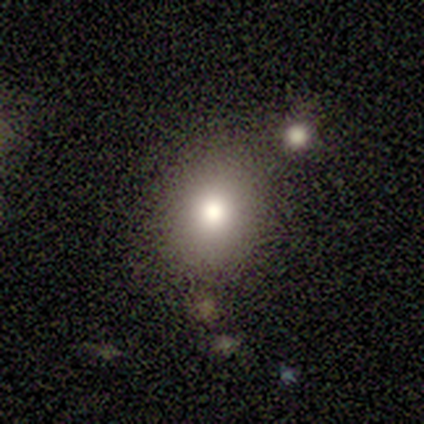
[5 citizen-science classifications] This is clearly a smooth galaxy (100%). How rounded: likely in between (60%). Merging: marginally none (40%).